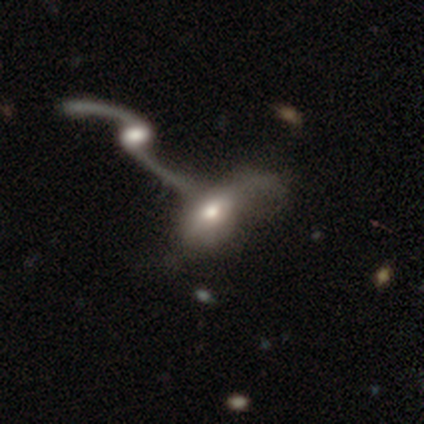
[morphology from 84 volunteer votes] Overall: featured or disk (55%; smooth 37%). Edge-on disk: no (93%). Bar: no (70%). Spiral arms: yes (74%). Spiral arm count: 2 (59%; 1 31%). Spiral winding: loose (91%). Bulge size: moderate (58%; small 21%). Merging: merger (75%).